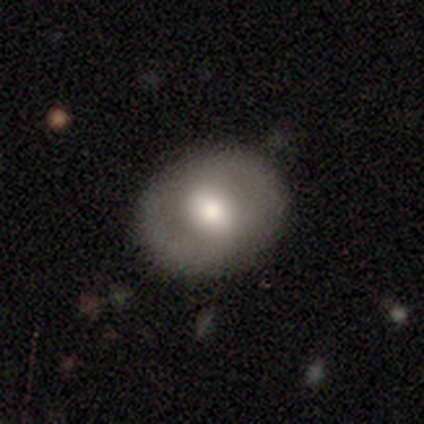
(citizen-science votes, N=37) This is likely a smooth galaxy (62%). How rounded: possibly in between (52%). Merging: likely none (74%).